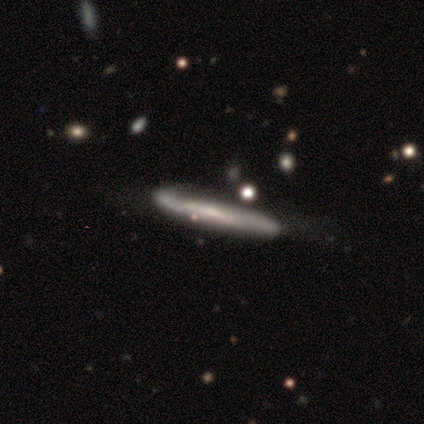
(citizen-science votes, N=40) This appears to be a featured or disk galaxy (72%) viewed edge-on (76%) with no central bulge (86%). Merging: none (45%).